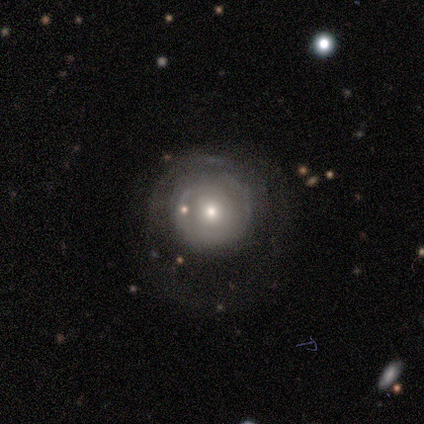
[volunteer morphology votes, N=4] A smooth galaxy with no disk features (50%, tied with featured or disk) that is round (100%). Merging: none (75%).